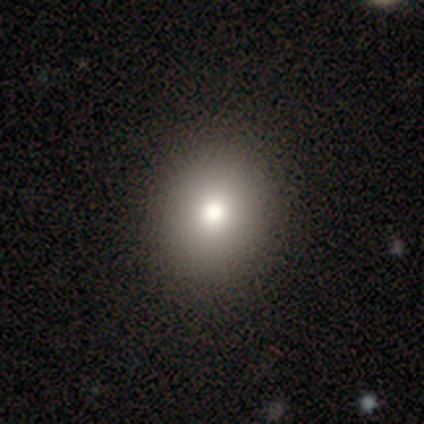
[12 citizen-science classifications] Q: Smooth or featured?
A: smooth (92%); runner-up: featured or disk (8%)
Q: How rounded?
A: round (100%)
Q: Merging?
A: none (83%); runner-up: minor disturbance (8%)